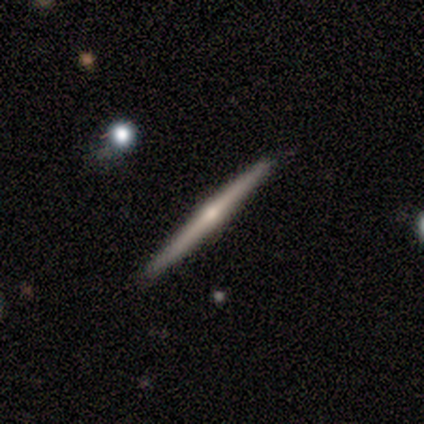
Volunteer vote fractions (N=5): featured or disk 60%, smooth 20%, star or artifact 20%. Down the decision tree: edge-on disk — yes (100%); edge-on bulge — rounded (67%); merging — none (75%).